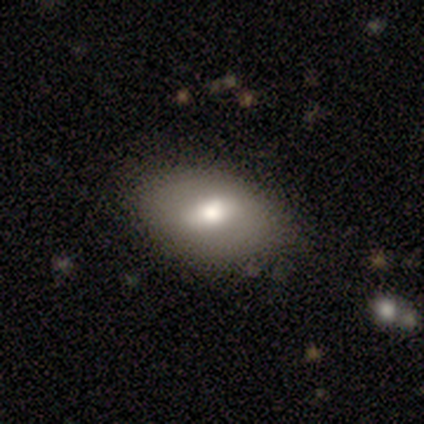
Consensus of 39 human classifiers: smooth_or_featured: smooth (p=0.72) [alt: featured or disk p=0.28]
how_rounded: in between (p=0.96) [alt: round p=0.04]
merging: none (p=0.44) [alt: minor disturbance p=0.05]